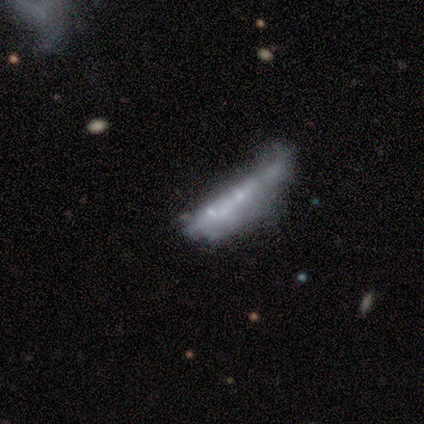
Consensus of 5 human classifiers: featured or disk 60%, smooth 20%, star or artifact 20%. Down the decision tree: edge-on disk — no (67%); bar — no (100%); spiral arms — no (100%); bulge size — small (100%); merging — minor disturbance (50%).